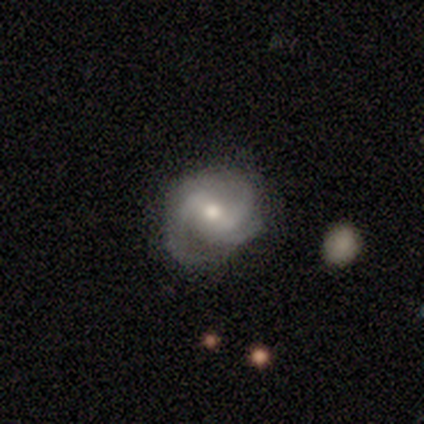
Volunteers were most divided on "bar" (2-way tie): weak: 40%, no: 40%, strong: 20%. More confident: smooth or featured — featured or disk (100%); edge-on disk — no (100%); spiral arms — yes (100%); spiral winding — medium (80%); spiral arm count — 3 (80%); bulge size — moderate (80%); merging — none (60%).